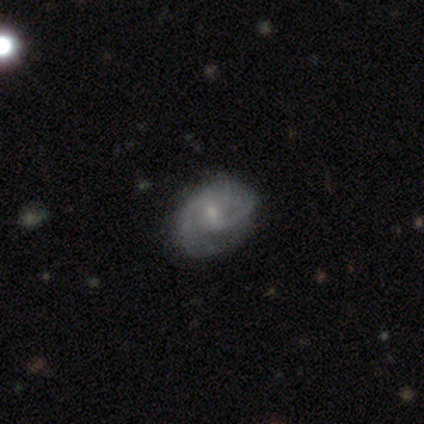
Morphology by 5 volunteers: Smooth or featured?
  - featured or disk: 80% *
  - star or artifact: 20%
  - smooth: 0%
Edge-on disk?
  - no: 100% *
  - yes: 0%
Bar?
  - weak: 50% * (tied)
  - no: 50% * (tied)
  - strong: 0%
Spiral arms?
  - yes: 100% *
  - no: 0%
Spiral winding?
  - tight: 75% *
  - medium: 25%
  - loose: 0%
Spiral arm count?
  - 2: 75% *
  - can't tell: 25%
  - 1: 0%
  - 3: 0%
  - 4: 0%
  - more than 4: 0%
Bulge size?
  - small: 75% *
  - none: 25%
  - dominant: 0%
  - large: 0%
  - moderate: 0%
Merging?
  - none: 75% *
  - merger: 25%
  - minor disturbance: 0%
  - major disturbance: 0%